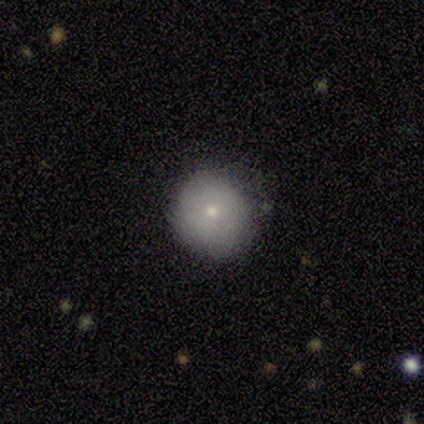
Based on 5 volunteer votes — Volunteers were most divided on "merging": none: 50%, minor disturbance: 25%, merger: 25%, major disturbance: 0%. More confident: how rounded — round (100%); smooth or featured — smooth (60%).